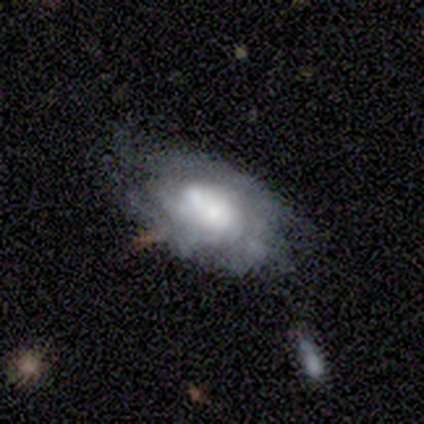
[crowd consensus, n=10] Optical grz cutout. It shows a featured or disk galaxy (90%) with no bar (89%), tight (86%) spiral arms (78%) and a moderate central bulge (44%). Merging: none (40%).